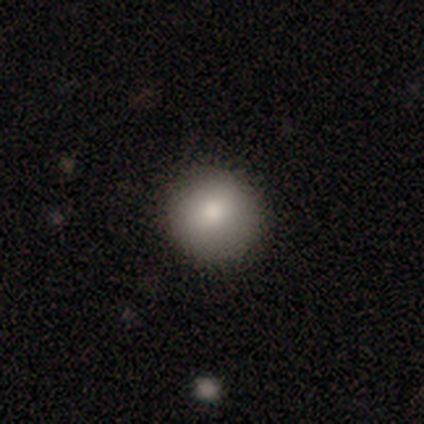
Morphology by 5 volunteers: Q: Smooth or featured?
A: smooth (40%); tied with: star or artifact (40%)
Q: How rounded?
A: round (100%)
Q: Merging?
A: none (100%)